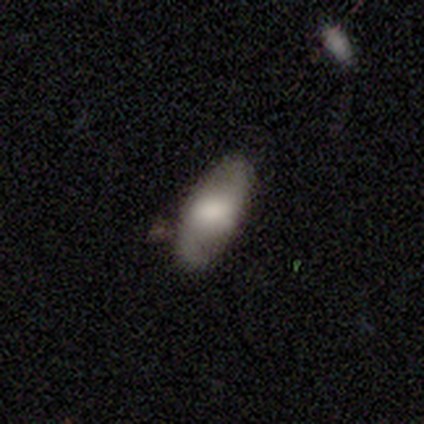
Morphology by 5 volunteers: Volunteers were most divided on "smooth or featured": smooth: 60%, featured or disk: 40%, star or artifact: 0%. More confident: how rounded — in between (100%); merging — none (80%).